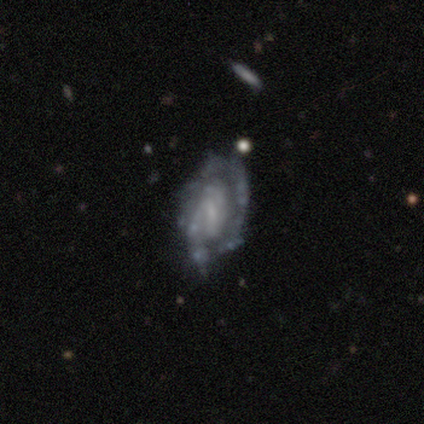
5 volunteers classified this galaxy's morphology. Q: Smooth or featured?
A: featured or disk (60%); runner-up: smooth (40%)
Q: Edge-on disk?
A: no (67%); runner-up: yes (33%)
Q: Bar?
A: weak (100%)
Q: Spiral arms?
A: yes (100%)
Q: Spiral winding?
A: tight (50%); tied with: medium (50%)
Q: Spiral arm count?
A: 2 (100%)
Q: Bulge size?
A: small (50%); tied with: none (50%)
Q: Merging?
A: none (40%); tied with: minor disturbance (40%)